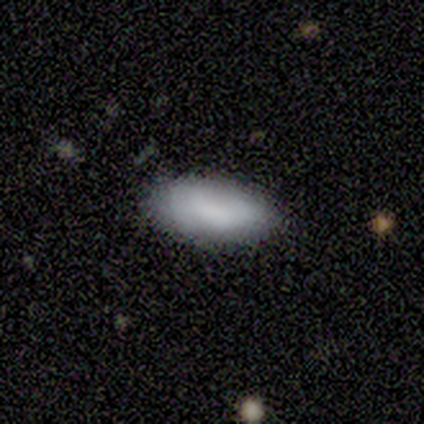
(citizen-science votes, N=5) Volunteers were most divided on "merging": none: 50%, minor disturbance: 25%, major disturbance: 25%, merger: 0%. More confident: smooth or featured — smooth (80%); how rounded — in between (75%).